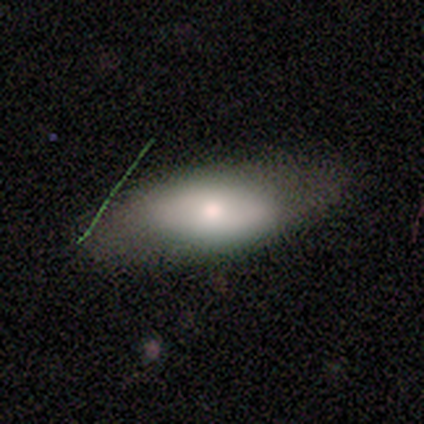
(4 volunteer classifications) A smooth galaxy with no disk features (100%) that is in between round and cigar-shaped (100%).

Vote fractions:
- Smooth or featured? smooth: 100% / featured or disk: 0% / star or artifact: 0%
- How rounded? in between: 100% / round: 0% / cigar-shaped: 0%
- Merging? none: 75% / minor disturbance: 25% / major disturbance: 0% / merger: 0%